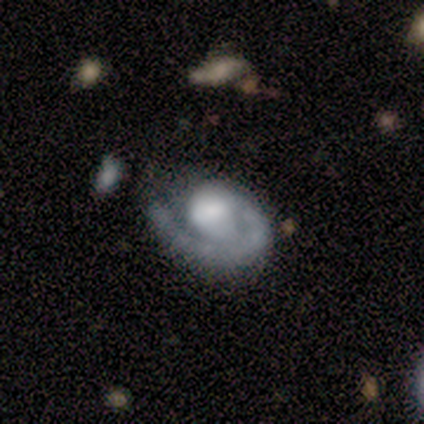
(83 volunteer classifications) smooth_or_featured: featured or disk (p=0.88) [alt: smooth p=0.10]
disk_edge_on: no (p=1.00)
bar: no (p=0.70) [alt: weak p=0.26]
has_spiral_arms: yes (p=0.88) [alt: no p=0.12]
spiral_winding: tight (p=0.67) [alt: medium p=0.17]
spiral_arm_count: 1 (p=0.88) [alt: can't tell p=0.09]
bulge_size: large (p=0.36) [alt: moderate p=0.29]
merging: none (p=0.64) [alt: major disturbance p=0.21]